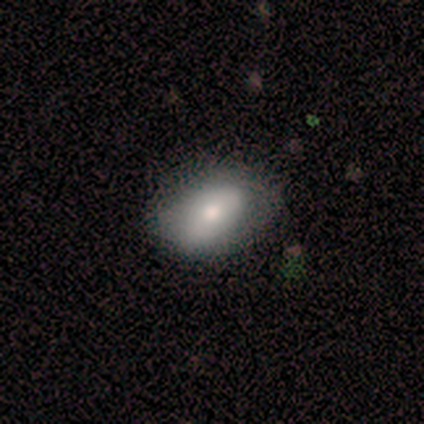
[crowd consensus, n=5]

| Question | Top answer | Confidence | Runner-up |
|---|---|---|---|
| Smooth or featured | smooth | 100% | — |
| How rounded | in between | 100% | — |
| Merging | none | 40% | tied: minor disturbance (40%) |